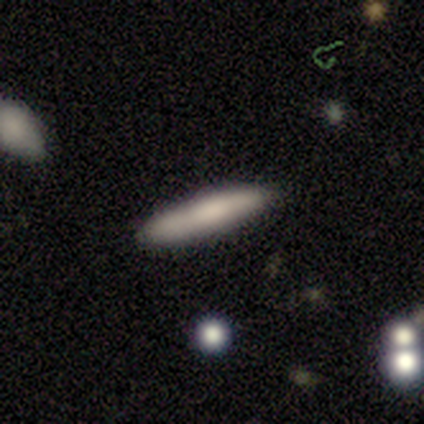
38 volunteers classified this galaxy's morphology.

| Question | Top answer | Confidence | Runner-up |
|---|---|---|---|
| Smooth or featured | smooth | 79% | featured or disk (13%) |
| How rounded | cigar-shaped | 93% | in between (7%) |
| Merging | none | 83% | minor disturbance (14%) |